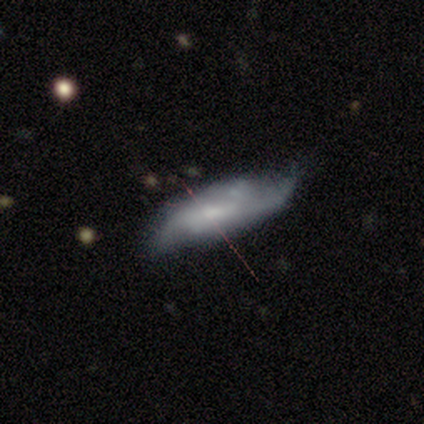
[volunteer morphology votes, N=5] Overall: featured or disk (80%). Edge-on disk: no (75%). Bar: strong (67%; no 33%). Spiral arms: yes (100%). Spiral arm count: can't tell (67%; 2 33%). Spiral winding: loose (67%; medium 33%). Bulge size: small (67%; moderate 33%). Merging: none (40%; minor disturbance 20%).